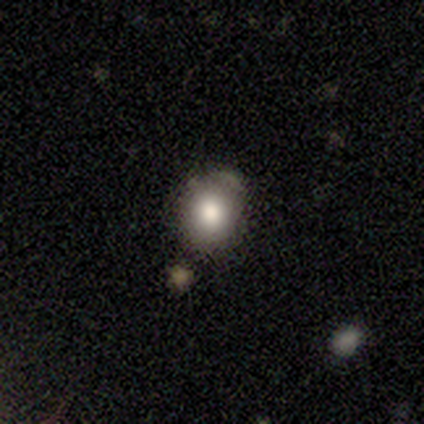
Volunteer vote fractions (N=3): Q: Smooth or featured?
A: smooth (100%)
Q: How rounded?
A: round (67%); runner-up: in between (33%)
Q: Merging?
A: none (100%)